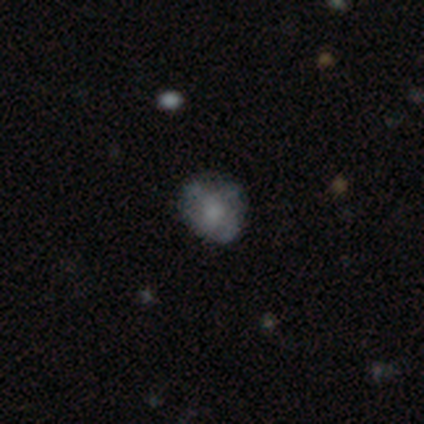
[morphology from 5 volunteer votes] smooth_or_featured: featured or disk (p=0.80) [alt: smooth p=0.20]
disk_edge_on: no (p=1.00)
bar: no (p=1.00)
has_spiral_arms: yes (p=0.75) [alt: no p=0.25]
spiral_winding: tight (p=0.33) [tied with: medium p=0.33, loose p=0.33]
spiral_arm_count: 3 (p=0.67) [alt: can't tell p=0.33]
bulge_size: moderate (p=0.50) [alt: large p=0.25]
merging: none (p=1.00)